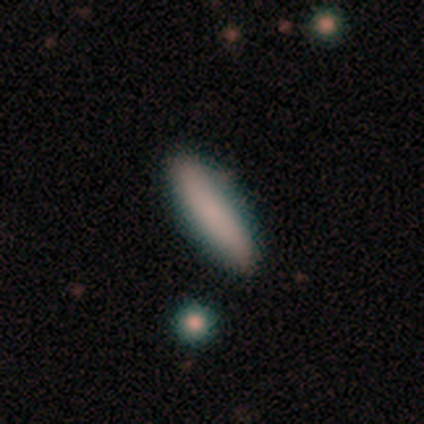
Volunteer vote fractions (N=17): smooth_or_featured: smooth (p=0.94) [alt: featured or disk p=0.06]
how_rounded: cigar-shaped (p=0.62) [alt: in between p=0.38]
merging: none (p=0.88) [alt: minor disturbance p=0.06]